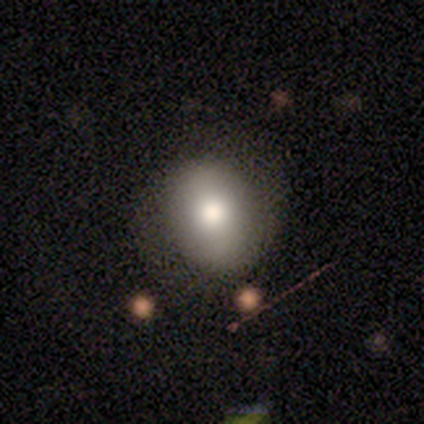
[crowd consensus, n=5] Smooth or featured? 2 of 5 (40%, tied with featured or disk) said smooth. How rounded? 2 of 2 (100%) said round. Merging? 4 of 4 (100%) said none.